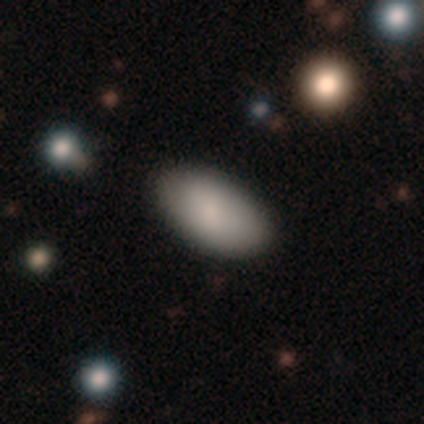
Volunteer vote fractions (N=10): smooth_or_featured: smooth (p=0.70) [alt: featured or disk p=0.20]
how_rounded: in between (p=1.00)
merging: none (p=1.00)